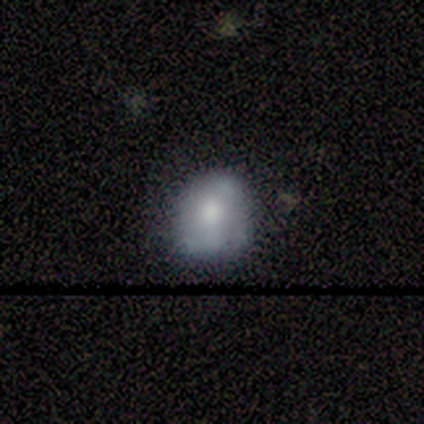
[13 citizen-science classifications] Smooth or featured: featured or disk — 54% (smooth — 38%)
Edge-on disk: no — 100%
Bar: no — 71% (weak — 29%)
Spiral arms: no — 86% (yes — 14%)
Bulge size: large — 43% (moderate — 29%)
Merging: none — 50% (minor disturbance — 33%)